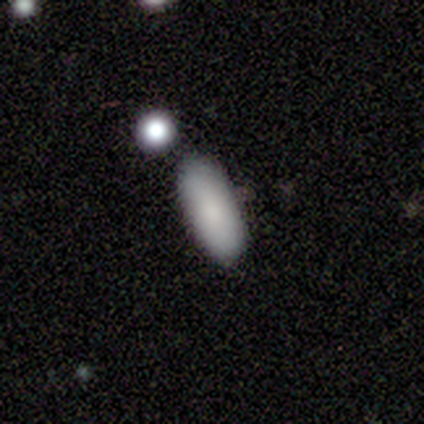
Morphology: type=smooth (100%); roundness=in between (100%); merging=none (60%).